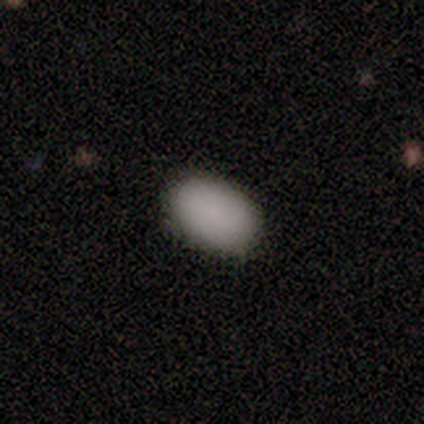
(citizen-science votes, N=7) A smooth galaxy with no disk features (100%) that is in between round and cigar-shaped (71%).

Vote fractions:
- Smooth or featured? smooth: 100% / featured or disk: 0% / star or artifact: 0%
- How rounded? in between: 71% / round: 29% / cigar-shaped: 0%
- Merging? none: 86% / minor disturbance: 14% / major disturbance: 0% / merger: 0%